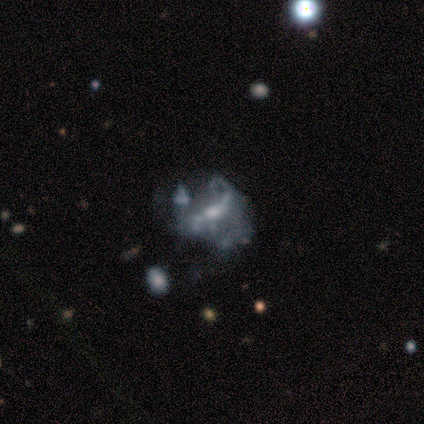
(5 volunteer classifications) featured or disk 80%, star or artifact 20%, smooth 0%. Down the decision tree: edge-on disk — no (100%); bar — strong (50%); spiral arms — yes (75%); spiral arm count — 2 (100%); spiral winding — loose (100%); bulge size — moderate (50%, tied with small); merging — major disturbance (50%).